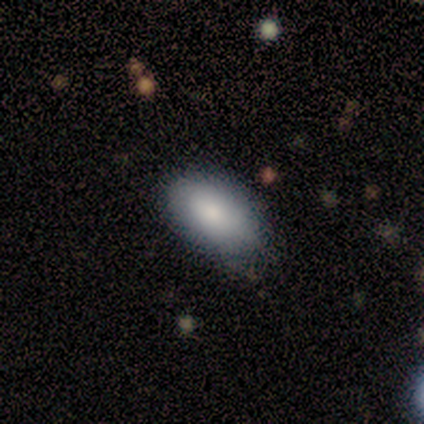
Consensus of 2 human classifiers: This appears to be a smooth galaxy with no disk features (100%) that is in between round and cigar-shaped (100%). Merging: none (100%).